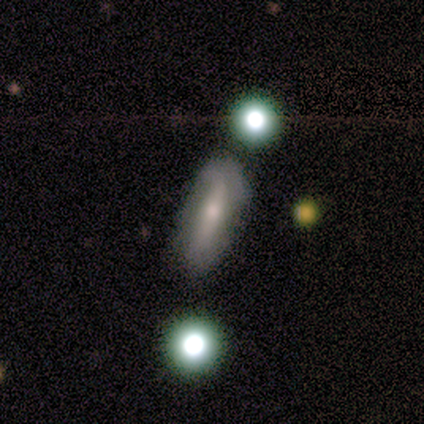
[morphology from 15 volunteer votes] Q: Smooth or featured?
A: smooth (60%); runner-up: featured or disk (40%)
Q: How rounded?
A: in between (67%); runner-up: cigar-shaped (22%)
Q: Merging?
A: none (80%); runner-up: minor disturbance (20%)